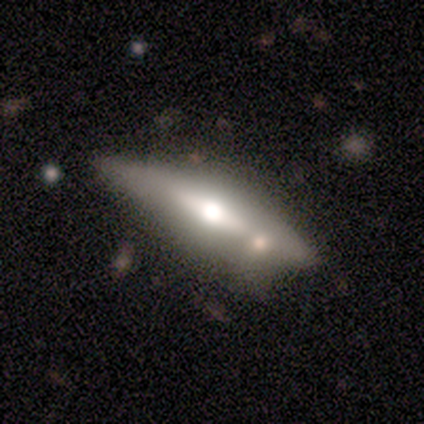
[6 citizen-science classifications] This is possibly a smooth galaxy (50%, tied with featured or disk). How rounded: likely cigar-shaped (67%). Merging: possibly none (50%).